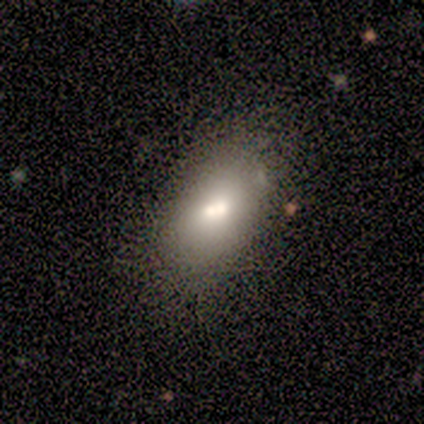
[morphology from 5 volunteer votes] smooth-or-featured: smooth: 40% (tied) | star or artifact: 40% (tied) | featured or disk: 20%
  how-rounded: in between: 100% | round: 0% | cigar-shaped: 0%
  merging: none: 67% | merger: 33% | minor disturbance: 0% | major disturbance: 0%